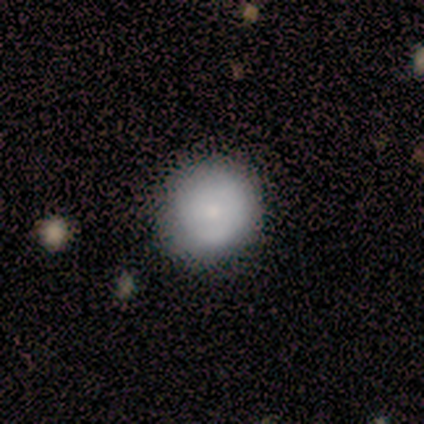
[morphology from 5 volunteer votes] Volunteers were most divided on "smooth or featured": smooth: 60%, featured or disk: 40%, star or artifact: 0%. More confident: how rounded — round (100%); merging — none (100%).